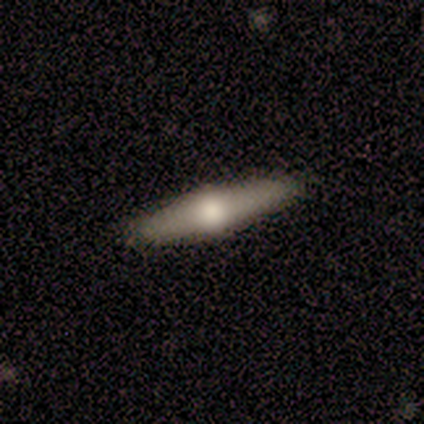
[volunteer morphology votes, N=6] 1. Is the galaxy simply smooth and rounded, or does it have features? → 50% smooth (tied), 50% featured or disk (tied), 0% star or artifact.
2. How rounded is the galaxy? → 67% cigar-shaped, 33% in between, 0% round.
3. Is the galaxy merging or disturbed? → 67% none, 33% minor disturbance, 0% major disturbance, 0% merger.